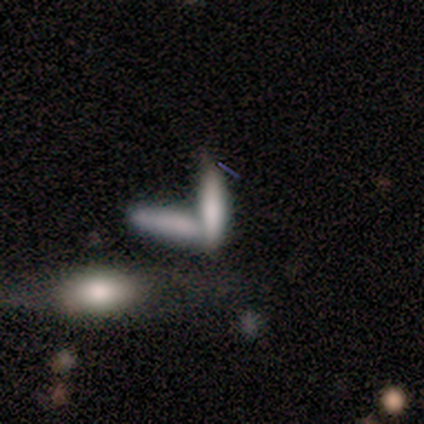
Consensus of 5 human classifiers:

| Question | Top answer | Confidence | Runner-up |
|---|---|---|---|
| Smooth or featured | smooth | 60% | featured or disk (20%) |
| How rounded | in between | 67% | cigar-shaped (33%) |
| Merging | merger | 75% | none (25%) |